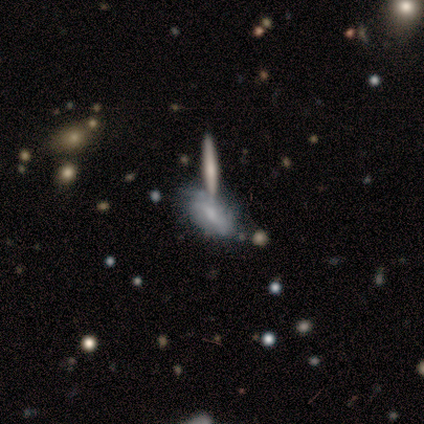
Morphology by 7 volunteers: A smooth galaxy with no disk features (57%) that is in between round and cigar-shaped (75%).

Vote fractions:
- Smooth or featured? smooth: 57% / featured or disk: 43% / star or artifact: 0%
- How rounded? in between: 75% / cigar-shaped: 25% / round: 0%
- Merging? none: 57% / merger: 29% / minor disturbance: 14% / major disturbance: 0%